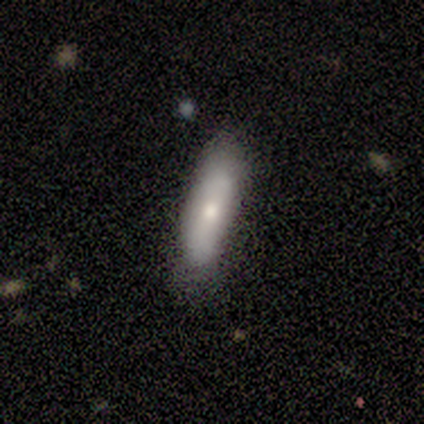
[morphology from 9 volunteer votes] This appears to be a smooth galaxy with no disk features (78%) that is in between round and cigar-shaped (57%). Merging: minor disturbance (62%).